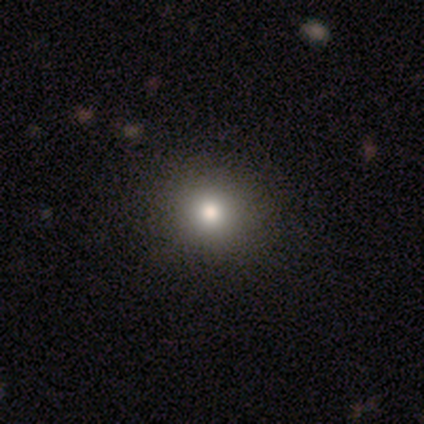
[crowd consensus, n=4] This is likely a smooth galaxy (75%). How rounded: clearly round (100%). Merging: likely none (67%).